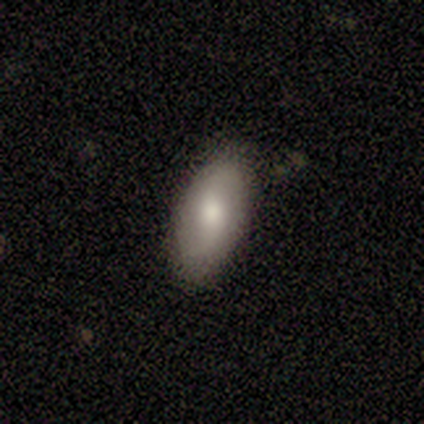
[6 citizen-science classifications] A smooth galaxy with no disk features (83%) that is in between round and cigar-shaped (100%). Merging: none (80%).